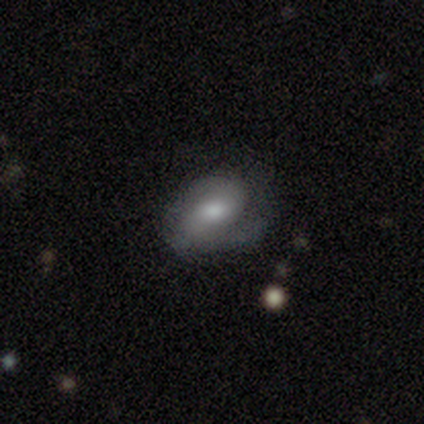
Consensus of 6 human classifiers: This is possibly a smooth galaxy (50%, tied with featured or disk). How rounded: clearly in between (100%). Merging: possibly none (50%, tied with minor disturbance).